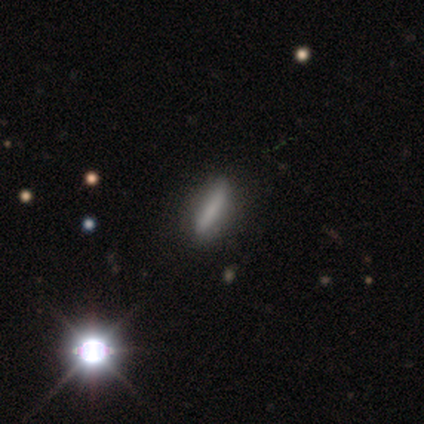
Smooth or featured?
  - smooth: 100% *
  - featured or disk: 0%
  - star or artifact: 0%
How rounded?
  - cigar-shaped: 80% *
  - in between: 20%
  - round: 0%
Merging?
  - none: 100% *
  - minor disturbance: 0%
  - major disturbance: 0%
  - merger: 0%